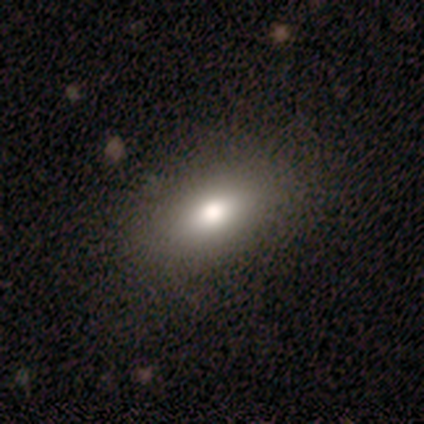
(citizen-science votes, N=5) A smooth galaxy with no disk features (80%) that is in between round and cigar-shaped (100%). Merging: none (100%).